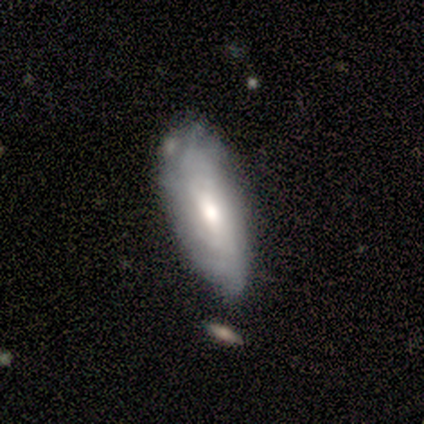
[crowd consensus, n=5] Smooth or featured: featured or disk — 100%
Edge-on disk: no — 80% (yes — 20%)
Bar: weak — 75% (no — 25%)
Spiral arms: yes — 50% (tied with no — 50%)
Spiral winding: tight — 50% (tied with loose — 50%)
Spiral arm count: can't tell — 100%
Bulge size: moderate — 50% (large — 25%)
Merging: none — 60% (minor disturbance — 40%)